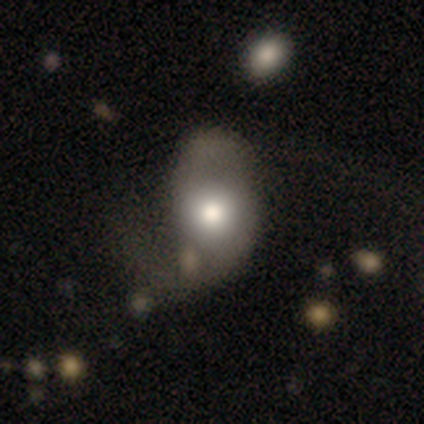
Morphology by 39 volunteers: Smooth or featured? smooth (51%)
How rounded? in between (75%)
Merging? none (43%)